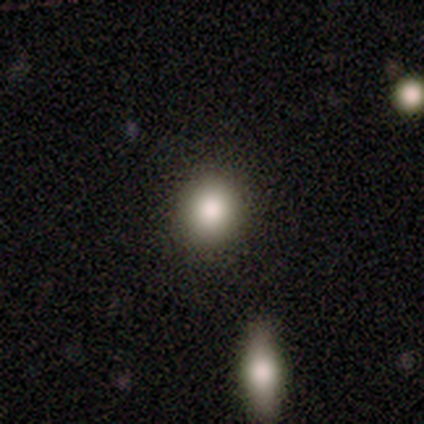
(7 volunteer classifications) Smooth or featured: smooth — 86% (star or artifact — 14%)
How rounded: round — 100%
Merging: none — 100%